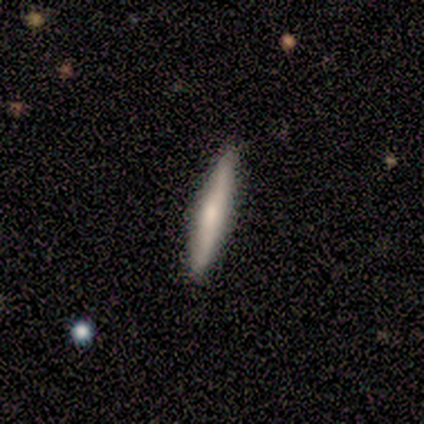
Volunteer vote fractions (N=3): smooth 67%, featured or disk 33%, star or artifact 0%. Down the decision tree: how rounded — cigar-shaped (100%); merging — none (100%).